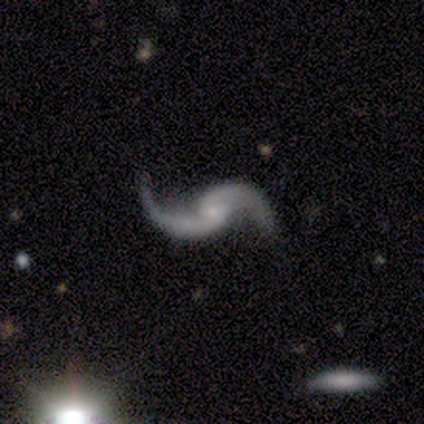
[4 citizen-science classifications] This appears to be a featured or disk galaxy (100%) with no bar (75%), 2 (100%) loose (100%) spiral arms (50%, tied with no) and a small central bulge (50%). Merging: none (50%).